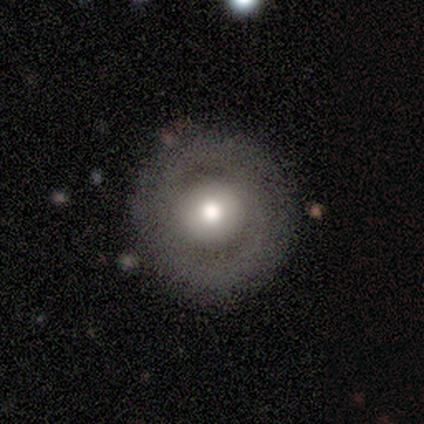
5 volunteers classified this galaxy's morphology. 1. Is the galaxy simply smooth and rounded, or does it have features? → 60% smooth, 40% featured or disk, 0% star or artifact.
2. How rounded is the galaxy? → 100% round, 0% in between, 0% cigar-shaped.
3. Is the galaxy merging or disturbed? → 80% none, 20% minor disturbance, 0% major disturbance, 0% merger.